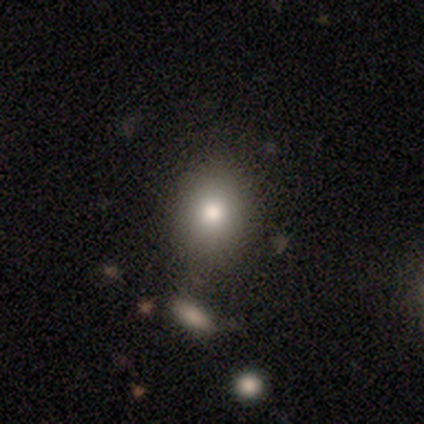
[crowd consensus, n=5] smooth-or-featured: smooth: 80% | star or artifact: 20% | featured or disk: 0%
  how-rounded: in between: 75% | round: 25% | cigar-shaped: 0%
  merging: none: 100% | minor disturbance: 0% | major disturbance: 0% | merger: 0%